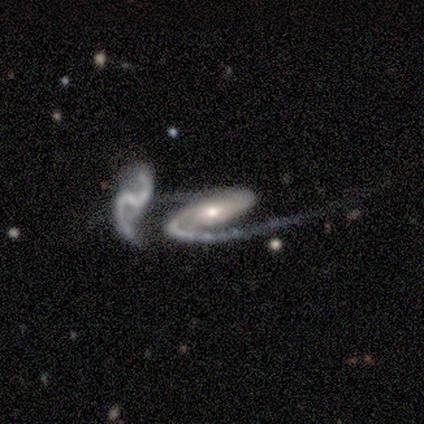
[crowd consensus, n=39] Smooth or featured? 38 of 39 (97%) said featured or disk. Edge-on disk? 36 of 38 (95%) said no. Bar? 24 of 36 (67%) said no. Spiral arms? 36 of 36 (100%) said yes. Spiral winding? 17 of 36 (47%) said loose. Spiral arm count? 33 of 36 (92%) said 2. Bulge size? 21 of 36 (58%) said moderate. Merging? 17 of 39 (44%) said merger.